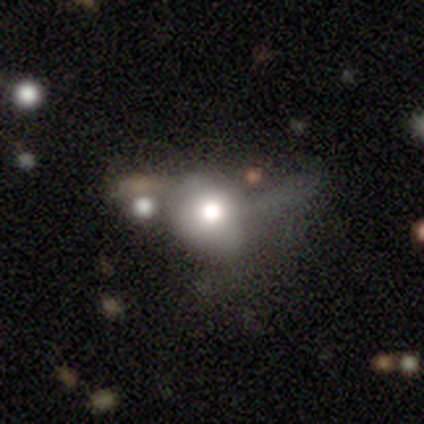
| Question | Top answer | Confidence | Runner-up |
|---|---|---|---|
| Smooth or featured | smooth | 57% | featured or disk (22%) |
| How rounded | round | 77% | in between (23%) |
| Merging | major disturbance | 39% | none (28%) |